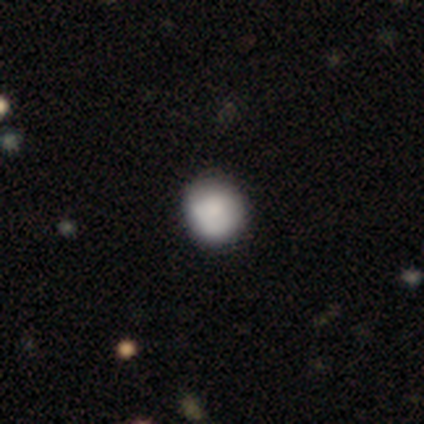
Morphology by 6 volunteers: Q: Smooth or featured?
A: smooth (83%); runner-up: featured or disk (17%)
Q: How rounded?
A: round (100%)
Q: Merging?
A: none (83%); runner-up: minor disturbance (17%)